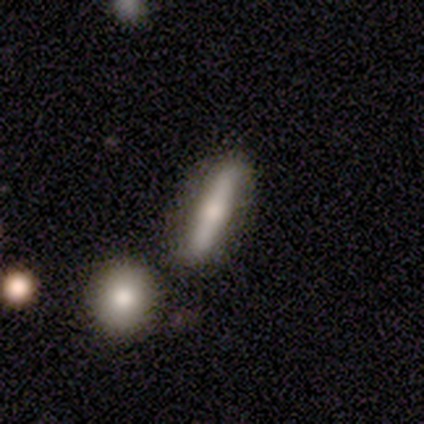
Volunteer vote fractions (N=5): Volunteers were most divided on "bar" (2-way tie): strong: 50%, no: 50%, weak: 0%. More confident: spiral arms — no (100%); bulge size — moderate (100%); edge-on disk — no (67%); smooth or featured — featured or disk (60%); merging — merger (50%).